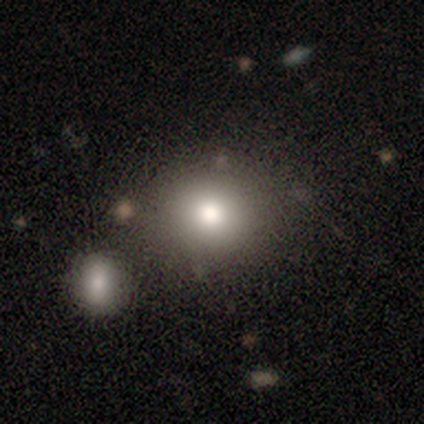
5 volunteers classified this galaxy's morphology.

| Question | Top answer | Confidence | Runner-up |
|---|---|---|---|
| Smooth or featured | smooth | 80% | featured or disk (20%) |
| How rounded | round | 75% | in between (25%) |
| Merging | merger | 60% | none (40%) |